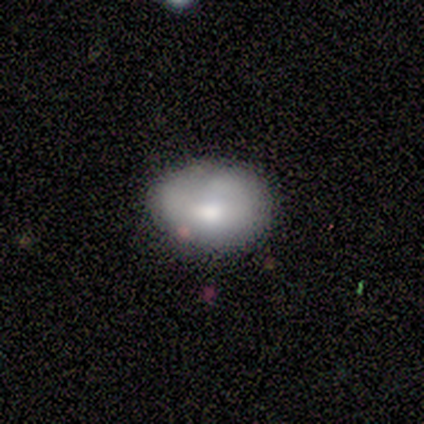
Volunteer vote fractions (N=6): smooth_or_featured: smooth (p=0.83) [alt: featured or disk p=0.17]
how_rounded: in between (p=1.00)
merging: none (p=0.67) [alt: minor disturbance p=0.33]